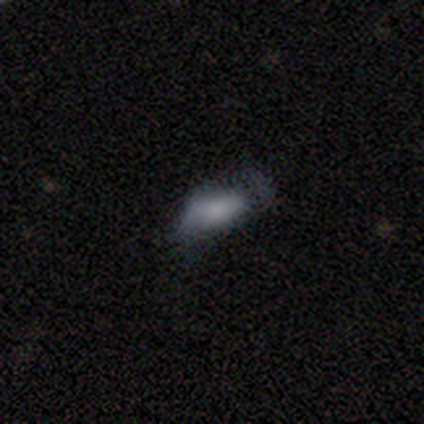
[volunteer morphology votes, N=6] type=smooth (83%); roundness=in between (100%); merging=minor disturbance (50%, tied with major disturbance).